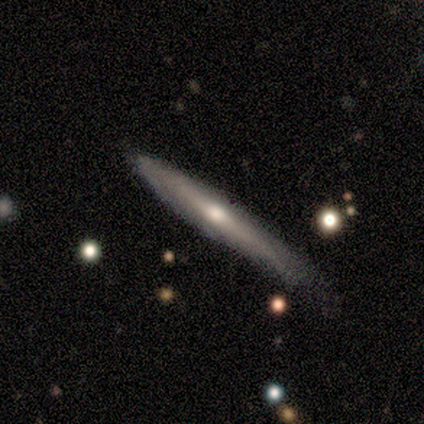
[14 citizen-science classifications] Smooth or featured?
  - featured or disk: 50% *
  - smooth: 43%
  - star or artifact: 7%
Edge-on disk?
  - yes: 86% *
  - no: 14%
Edge-on bulge?
  - rounded: 67% *
  - none: 33%
  - boxy: 0%
Merging?
  - none: 62% *
  - major disturbance: 23%
  - minor disturbance: 15%
  - merger: 0%